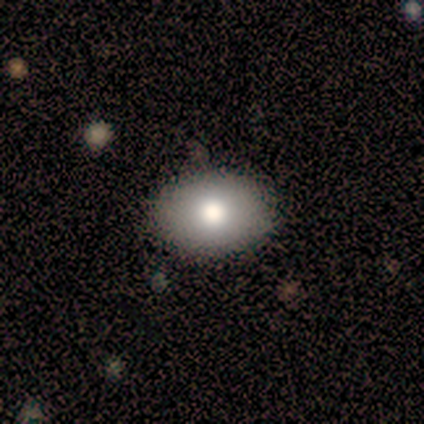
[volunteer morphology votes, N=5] A smooth galaxy with no disk features (60%) that is in between round and cigar-shaped (67%).

Vote fractions:
- Smooth or featured? smooth: 60% / featured or disk: 40% / star or artifact: 0%
- How rounded? in between: 67% / round: 33% / cigar-shaped: 0%
- Merging? none: 80% / minor disturbance: 20% / major disturbance: 0% / merger: 0%